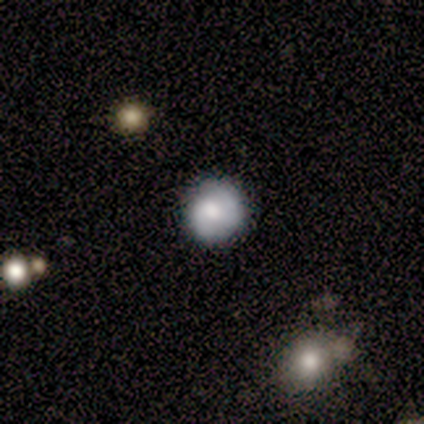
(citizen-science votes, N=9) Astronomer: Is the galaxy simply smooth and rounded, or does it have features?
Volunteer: smooth — 67%.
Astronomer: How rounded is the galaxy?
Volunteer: round — 100%.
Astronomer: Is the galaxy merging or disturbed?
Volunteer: none — 88%.